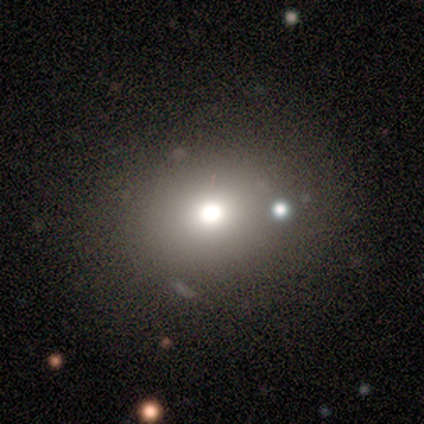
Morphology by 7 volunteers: Volunteers were most divided on "how rounded" (2-way tie): round: 50%, in between: 50%, cigar-shaped: 0%. More confident: merging — none (67%); smooth or featured — smooth (57%).